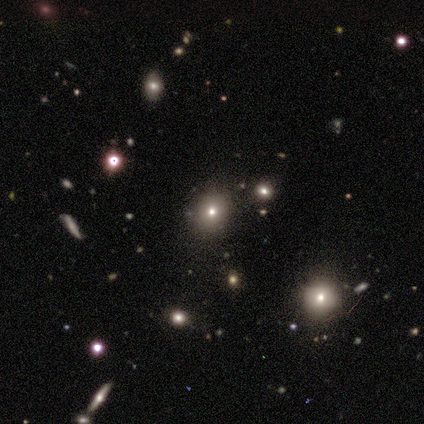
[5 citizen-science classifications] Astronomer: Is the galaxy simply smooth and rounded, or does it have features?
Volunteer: smooth — 60% (runner-up: star or artifact, 40%).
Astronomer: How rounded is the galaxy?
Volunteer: round — 100%.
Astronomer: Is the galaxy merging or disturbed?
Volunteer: none — 67%.